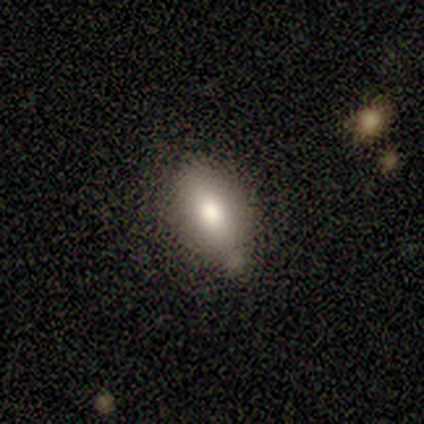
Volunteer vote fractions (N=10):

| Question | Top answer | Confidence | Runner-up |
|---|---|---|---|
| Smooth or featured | smooth | 100% | — |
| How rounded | in between | 80% | round (10%) |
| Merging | none | 80% | minor disturbance (20%) |